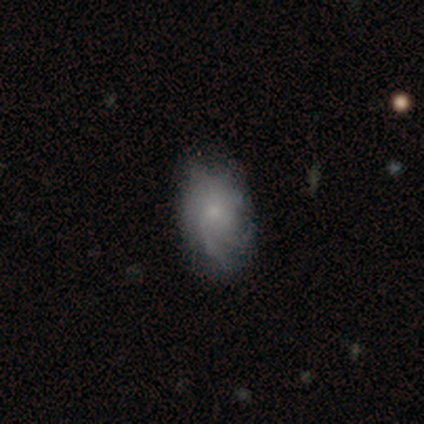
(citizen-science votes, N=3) Smooth or featured? featured or disk (67%)
Edge-on disk? no (100%)
Bar? weak (100%)
Spiral arms? yes (100%)
Spiral winding? medium (50%, tied with loose)
Spiral arm count? 1 (50%, tied with 2)
Bulge size? moderate (50%, tied with small)
Merging? none (100%)